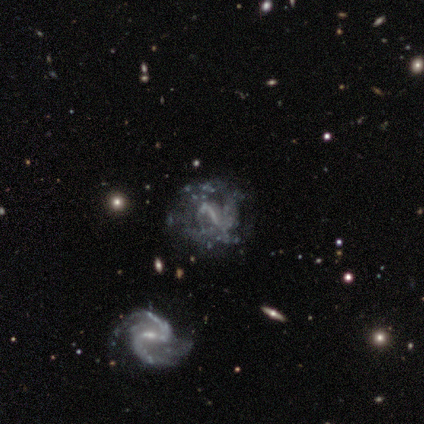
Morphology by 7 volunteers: A featured or disk galaxy (100%) with a strong bar (86%), no spiral arms (57%) and no central bulge (71%).

Vote fractions:
- Smooth or featured? featured or disk: 100% / smooth: 0% / star or artifact: 0%
- Edge-on disk? no: 100% / yes: 0%
- Bar? strong: 86% / weak: 14% / no: 0%
- Spiral arms? no: 57% / yes: 43%
- Bulge size? none: 71% / moderate: 14% / small: 14% / dominant: 0% / large: 0%
- Merging? none: 57% / major disturbance: 43% / minor disturbance: 0% / merger: 0%